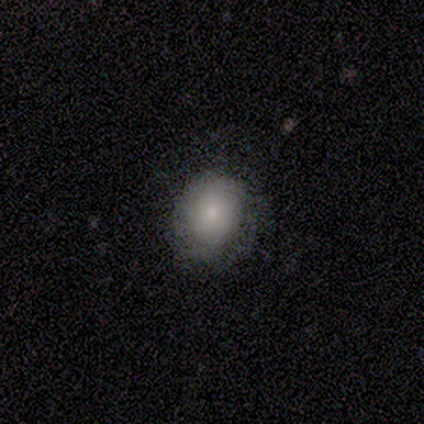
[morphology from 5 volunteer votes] This appears to be a smooth galaxy with no disk features (60%) that is round (100%). Merging: none (80%).